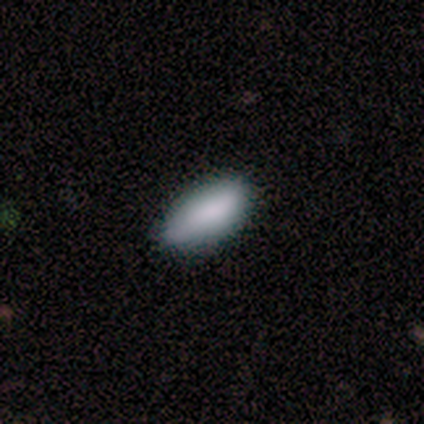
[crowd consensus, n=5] Volunteers were most divided on "merging": none: 60%, minor disturbance: 40%, major disturbance: 0%, merger: 0%. More confident: smooth or featured — smooth (100%); how rounded — in between (80%).